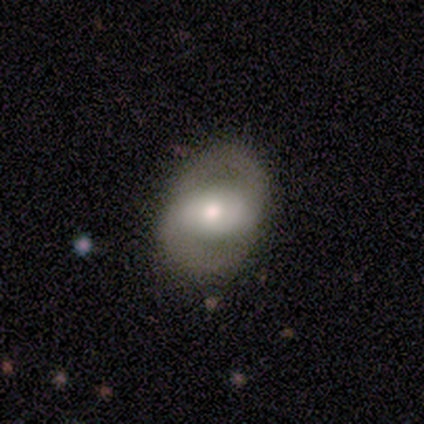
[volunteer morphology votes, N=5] featured or disk 80%, star or artifact 20%, smooth 0%. Down the decision tree: edge-on disk — no (100%); bar — strong (75%); spiral arms — no (75%); bulge size — large (50%); merging — none (75%).